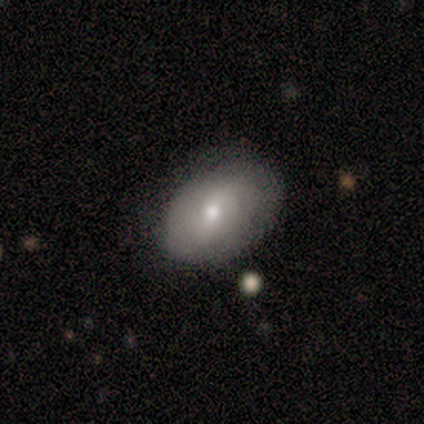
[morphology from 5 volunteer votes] Q: Smooth or featured?
A: smooth (80%); runner-up: featured or disk (20%)
Q: How rounded?
A: in between (100%)
Q: Merging?
A: none (80%); runner-up: minor disturbance (20%)